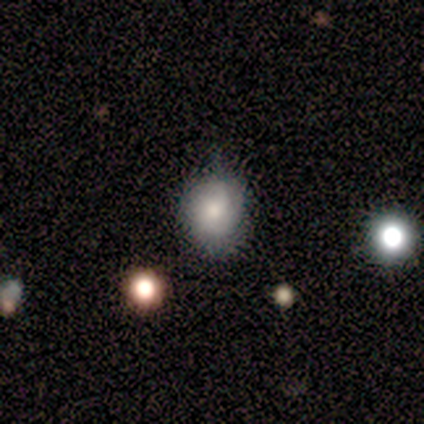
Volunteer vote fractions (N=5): smooth-or-featured: smooth: 80% | featured or disk: 20% | star or artifact: 0%
  how-rounded: round: 100% | in between: 0% | cigar-shaped: 0%
  merging: none: 60% | minor disturbance: 20% | major disturbance: 20% | merger: 0%